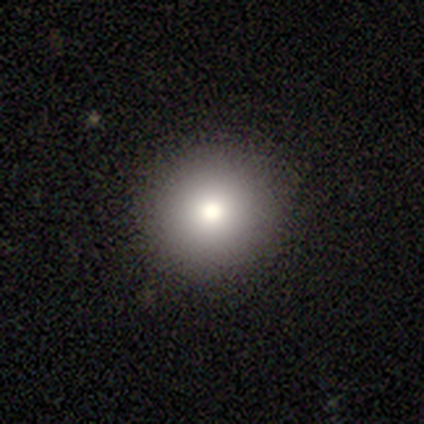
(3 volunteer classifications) Smooth or featured? 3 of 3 (100%) said smooth. How rounded? 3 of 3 (100%) said round. Merging? 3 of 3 (100%) said none.